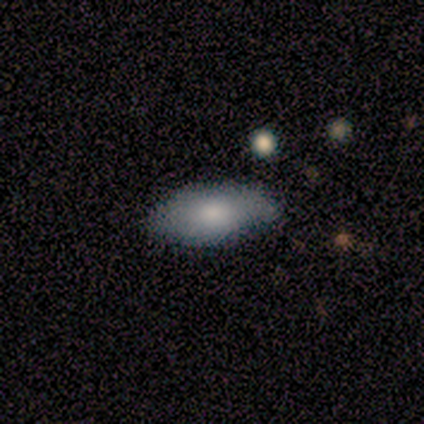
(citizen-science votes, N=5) smooth 60%, featured or disk 40%, star or artifact 0%. Down the decision tree: how rounded — in between (67%); merging — none (60%).